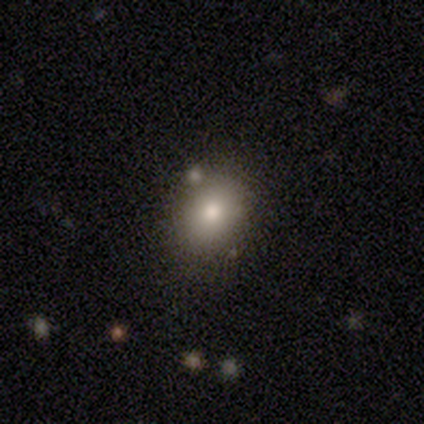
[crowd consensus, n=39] Smooth or featured? 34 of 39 (87%) said smooth. How rounded? 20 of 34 (59%) said in between. Merging? 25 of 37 (68%) said none.